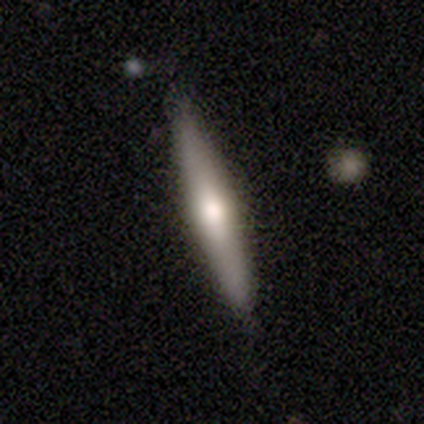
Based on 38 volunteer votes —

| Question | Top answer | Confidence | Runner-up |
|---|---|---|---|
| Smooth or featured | smooth | 45% | tied: featured or disk (45%) |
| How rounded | cigar-shaped | 88% | in between (12%) |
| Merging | none | 88% | minor disturbance (6%) |